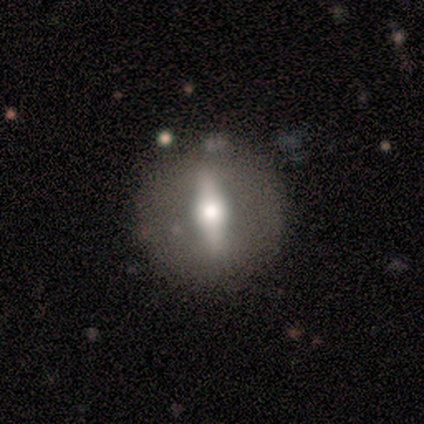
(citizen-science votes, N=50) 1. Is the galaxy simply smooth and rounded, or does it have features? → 58% featured or disk, 36% smooth, 6% star or artifact.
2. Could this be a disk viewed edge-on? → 66% no, 34% yes.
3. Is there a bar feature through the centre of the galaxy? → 84% strong, 11% no, 5% weak.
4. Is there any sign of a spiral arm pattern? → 95% no, 5% yes.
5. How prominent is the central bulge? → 68% moderate, 32% large, 0% dominant, 0% small, 0% none.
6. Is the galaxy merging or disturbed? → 77% none, 15% minor disturbance, 6% major disturbance, 2% merger.